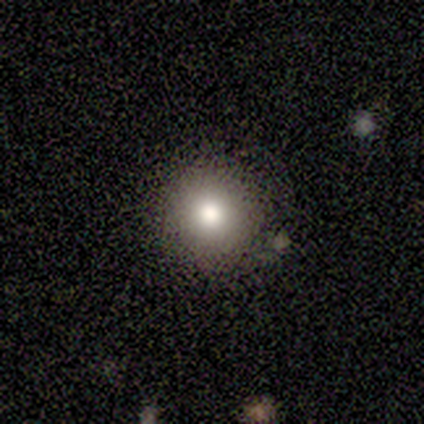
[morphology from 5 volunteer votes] Smooth or featured: smooth — 80% (star or artifact — 20%)
How rounded: round — 75% (in between — 25%)
Merging: none — 100%